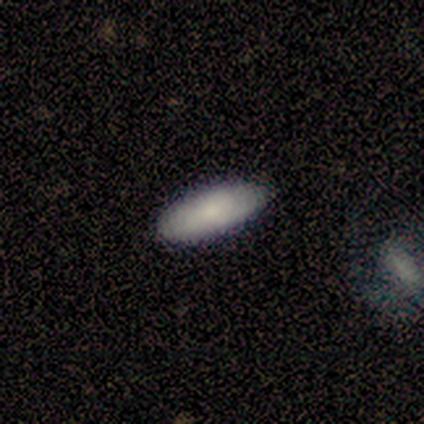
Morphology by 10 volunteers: smooth_or_featured: smooth (p=0.80) [alt: featured or disk p=0.20]
how_rounded: in between (p=0.88) [alt: cigar-shaped p=0.12]
merging: none (p=0.90) [alt: minor disturbance p=0.10]